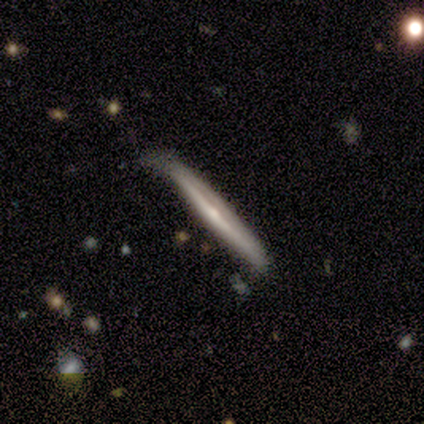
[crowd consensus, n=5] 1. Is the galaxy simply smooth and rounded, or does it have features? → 80% featured or disk, 20% smooth, 0% star or artifact.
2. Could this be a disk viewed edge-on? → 100% yes, 0% no.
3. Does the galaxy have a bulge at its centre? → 75% rounded, 25% none, 0% boxy.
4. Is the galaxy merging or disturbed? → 60% none, 40% minor disturbance, 0% major disturbance, 0% merger.